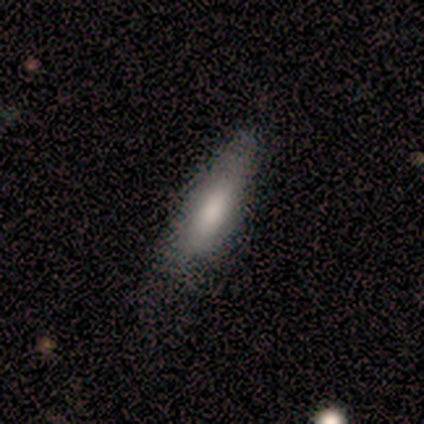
Smooth or featured: smooth — 80% (featured or disk — 20%)
How rounded: cigar-shaped — 75% (in between — 25%)
Merging: none — 100%